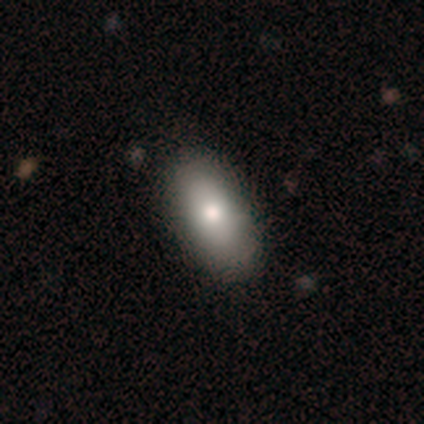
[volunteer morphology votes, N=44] Overall: smooth (66%). How rounded: in between (86%). Merging: none (72%).